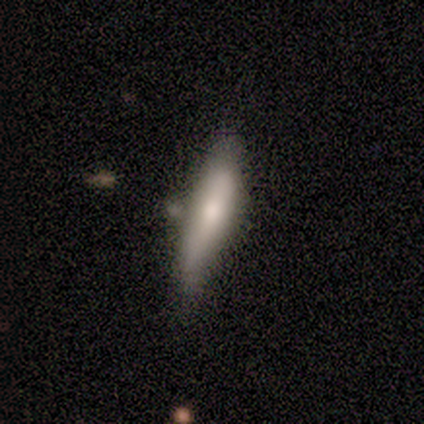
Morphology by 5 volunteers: Smooth or featured: smooth — 60% (featured or disk — 40%)
How rounded: cigar-shaped — 100%
Merging: none — 60% (minor disturbance — 40%)